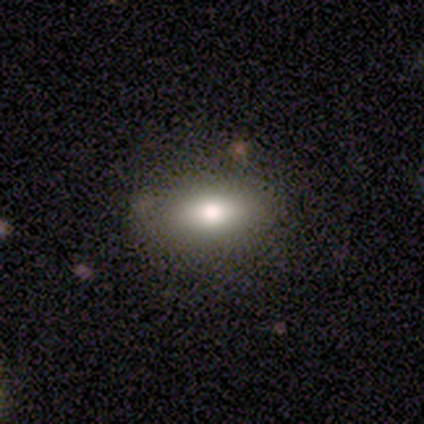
smooth_or_featured: smooth (p=0.91) [alt: star or artifact p=0.09]
how_rounded: in between (p=1.00)
merging: none (p=1.00)